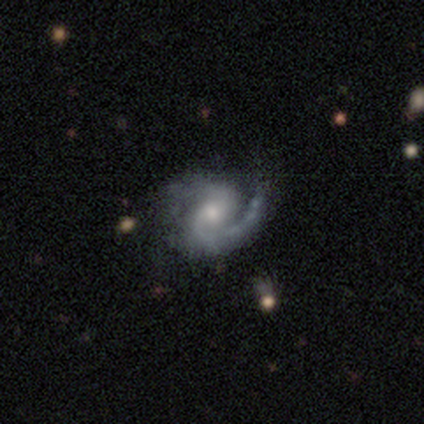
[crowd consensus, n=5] Smooth or featured? 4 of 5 (80%) said featured or disk. Edge-on disk? 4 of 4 (100%) said no. Bar? 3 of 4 (75%) said no. Spiral arms? 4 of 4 (100%) said yes. Spiral winding? 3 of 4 (75%) said medium. Spiral arm count? 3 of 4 (75%) said 2. Bulge size? 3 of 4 (75%) said moderate. Merging? 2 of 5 (40%) said none.